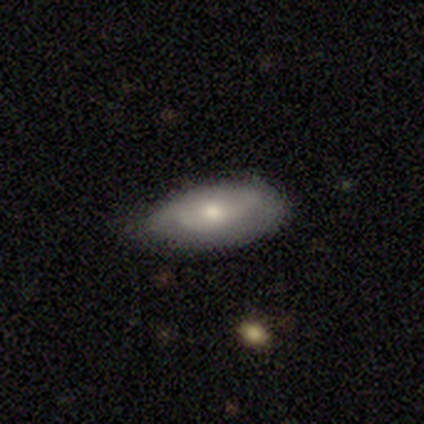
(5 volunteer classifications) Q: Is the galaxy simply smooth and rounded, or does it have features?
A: smooth — 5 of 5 (100%).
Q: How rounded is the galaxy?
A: in between — 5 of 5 (100%).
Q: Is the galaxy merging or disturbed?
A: none — 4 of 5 (80%).